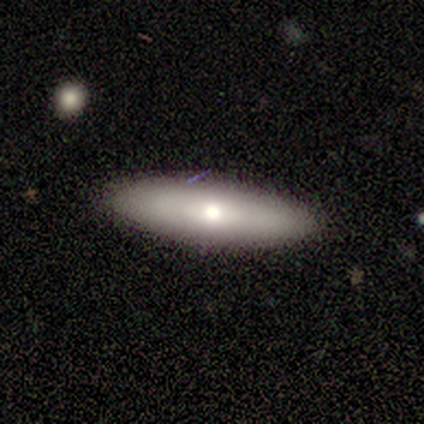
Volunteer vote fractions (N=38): Overall: smooth (63%; featured or disk 32%). How rounded: cigar-shaped (58%; in between 38%). Merging: none (86%).